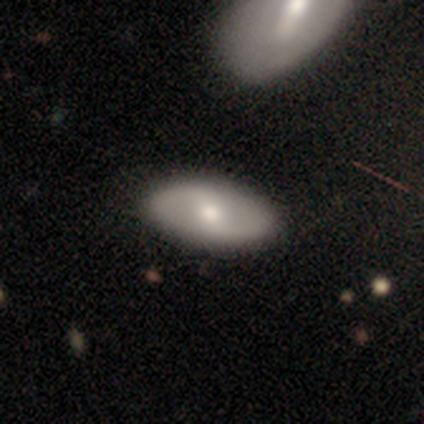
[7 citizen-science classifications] A featured or disk galaxy (71%) with a weak bar (40%, tied with no), 2 (100%) loose (75%) spiral arms (80%) and a small central bulge (60%). Merging: none (86%).